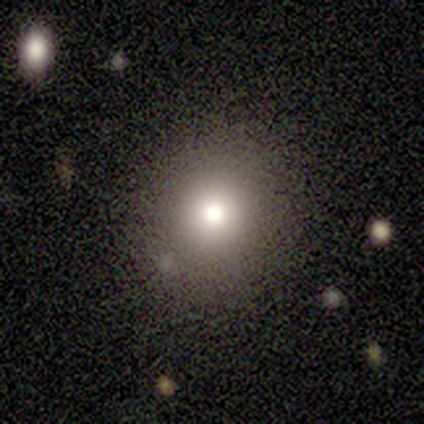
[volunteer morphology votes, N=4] This is possibly a star or artifact rather than a galaxy (50%).